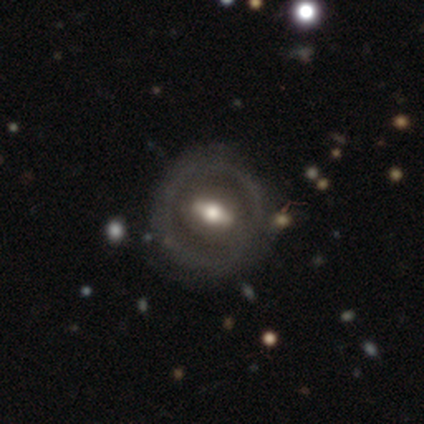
A featured or disk galaxy (87%) with a strong bar (48%), no spiral arms (65%) and a moderate central bulge (71%).

Vote fractions:
- Smooth or featured? featured or disk: 87% / smooth: 13% / star or artifact: 0%
- Edge-on disk? no: 91% / yes: 9%
- Bar? strong: 48% / weak: 39% / no: 13%
- Spiral arms? no: 65% / yes: 35%
- Bulge size? moderate: 71% / large: 19% / small: 10% / dominant: 0% / none: 0%
- Merging? none: 85% / minor disturbance: 5% / major disturbance: 5% / merger: 5%